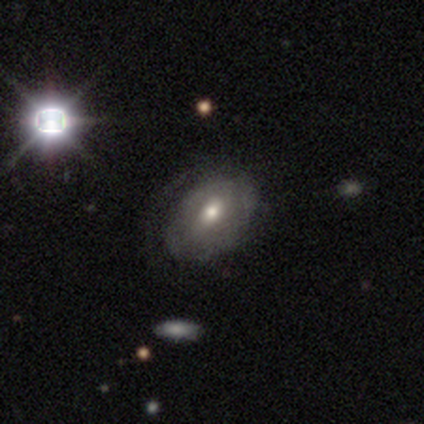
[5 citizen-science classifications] Volunteers were most divided on "edge-on bulge" (2-way tie): boxy: 50%, rounded: 50%, none: 0%. More confident: edge-on disk — yes (67%); smooth or featured — featured or disk (60%); merging — none (60%).